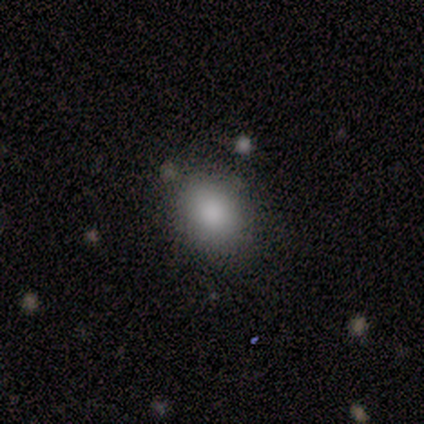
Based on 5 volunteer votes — Smooth or featured?
  - smooth: 80% *
  - featured or disk: 20%
  - star or artifact: 0%
How rounded?
  - in between: 75% *
  - round: 25%
  - cigar-shaped: 0%
Merging?
  - none: 80% *
  - minor disturbance: 20%
  - major disturbance: 0%
  - merger: 0%